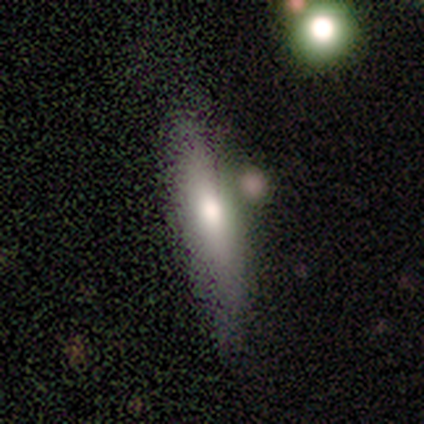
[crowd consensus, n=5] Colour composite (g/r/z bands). It shows a smooth galaxy with no disk features (40%, tied with featured or disk) that is cigar-shaped (100%). Merging: none (50%, tied with minor disturbance).